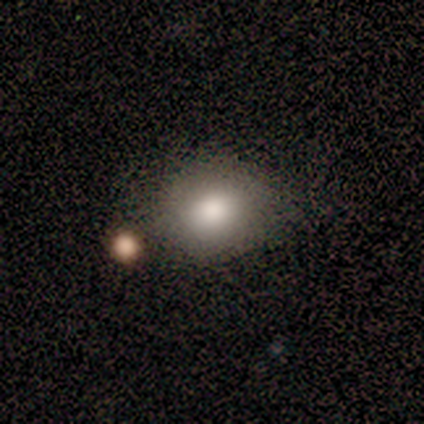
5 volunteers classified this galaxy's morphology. Smooth or featured? smooth (100%)
How rounded? round (100%)
Merging? none (100%)